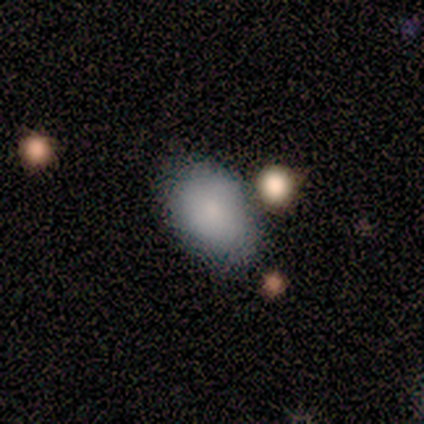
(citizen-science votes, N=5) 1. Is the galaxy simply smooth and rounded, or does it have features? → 100% smooth, 0% featured or disk, 0% star or artifact.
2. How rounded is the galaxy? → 80% in between, 20% round, 0% cigar-shaped.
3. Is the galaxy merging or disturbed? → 100% none, 0% minor disturbance, 0% major disturbance, 0% merger.